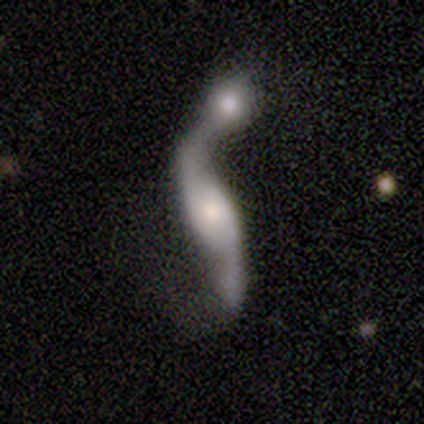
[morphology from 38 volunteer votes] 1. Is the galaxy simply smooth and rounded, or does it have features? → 79% featured or disk, 16% smooth, 5% star or artifact.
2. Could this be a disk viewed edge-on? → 77% no, 23% yes.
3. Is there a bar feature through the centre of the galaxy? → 48% weak, 39% no, 13% strong.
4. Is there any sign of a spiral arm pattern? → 83% yes, 17% no.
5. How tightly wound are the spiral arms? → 89% loose, 11% medium, 0% tight.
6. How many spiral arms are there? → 84% 2, 11% can't tell, 5% 1, 0% 3, 0% 4, 0% more than 4.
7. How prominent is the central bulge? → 48% moderate, 26% small, 22% large, 4% none, 0% dominant.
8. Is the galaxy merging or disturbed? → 72% merger, 17% minor disturbance, 11% none, 0% major disturbance.